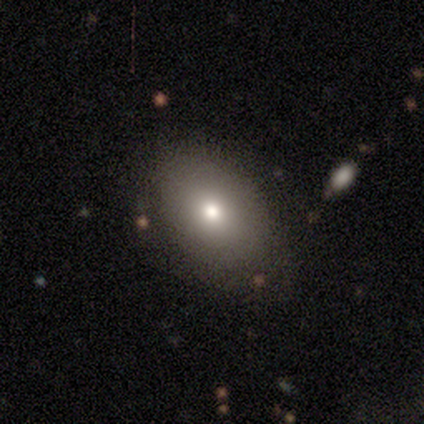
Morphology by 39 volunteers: smooth_or_featured: smooth (p=0.77) [alt: featured or disk p=0.18]
how_rounded: in between (p=0.80) [alt: round p=0.13]
merging: none (p=0.78) [alt: minor disturbance p=0.19]